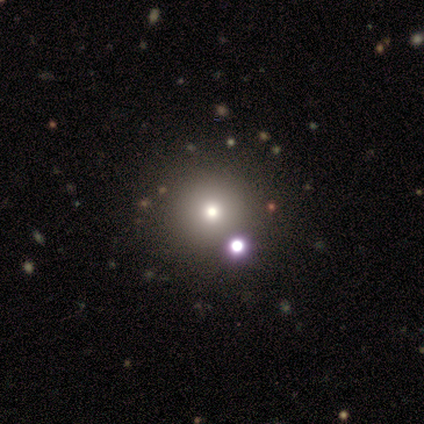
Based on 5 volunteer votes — Smooth or featured?
  - smooth: 80% *
  - featured or disk: 20%
  - star or artifact: 0%
How rounded?
  - round: 100% *
  - in between: 0%
  - cigar-shaped: 0%
Merging?
  - none: 80% *
  - minor disturbance: 20%
  - major disturbance: 0%
  - merger: 0%